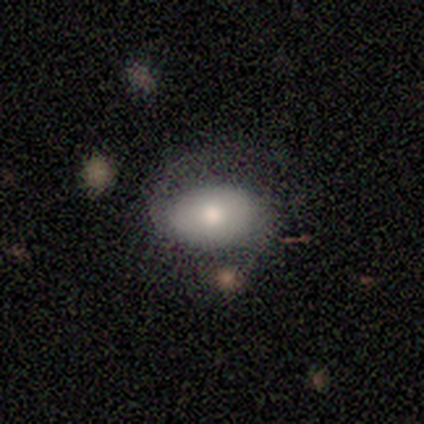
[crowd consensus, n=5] This is clearly a smooth galaxy (80%). How rounded: clearly in between (100%). Merging: likely minor disturbance (60%).